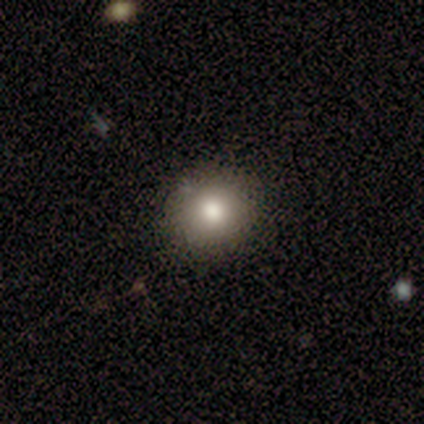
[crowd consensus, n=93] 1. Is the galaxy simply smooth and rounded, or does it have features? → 73% smooth, 18% star or artifact, 9% featured or disk.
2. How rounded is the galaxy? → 88% round, 12% in between, 0% cigar-shaped.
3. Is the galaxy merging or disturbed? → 88% none, 9% minor disturbance, 1% major disturbance, 1% merger.